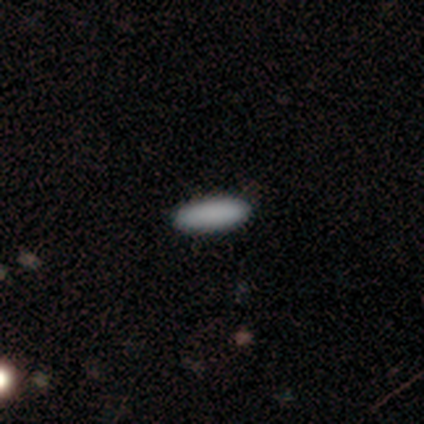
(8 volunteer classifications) Smooth or featured? 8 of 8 (100%) said smooth. How rounded? 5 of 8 (62%) said in between. Merging? 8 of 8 (100%) said none.